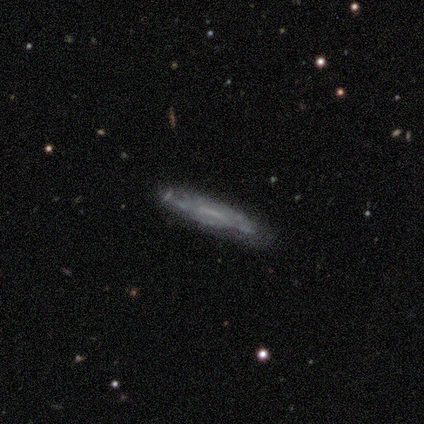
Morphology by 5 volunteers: Smooth or featured? featured or disk (60%)
Edge-on disk? no (67%)
Bar? weak (50%, tied with no)
Spiral arms? yes (100%)
Spiral winding? medium (50%, tied with loose)
Spiral arm count? can't tell (100%)
Bulge size? none (100%)
Merging? none (100%)